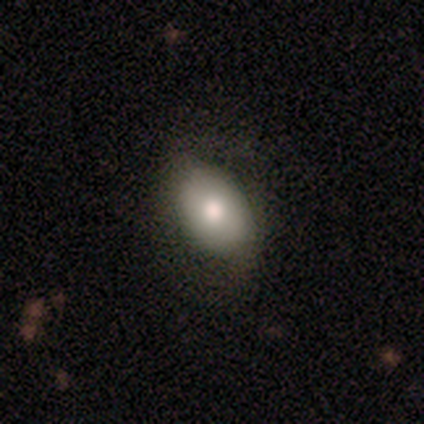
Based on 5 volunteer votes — Smooth or featured? 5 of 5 (100%) said smooth. How rounded? 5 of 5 (100%) said in between. Merging? 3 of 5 (60%) said minor disturbance.